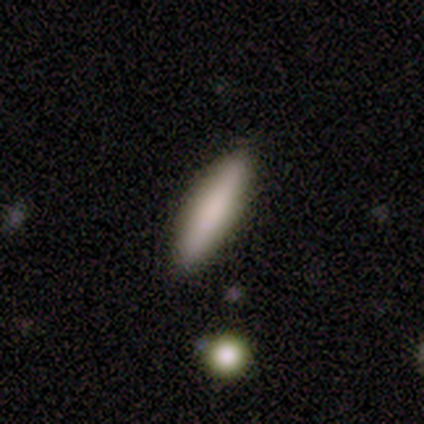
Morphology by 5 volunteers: Overall: smooth (80%). How rounded: cigar-shaped (75%). Merging: none (75%).